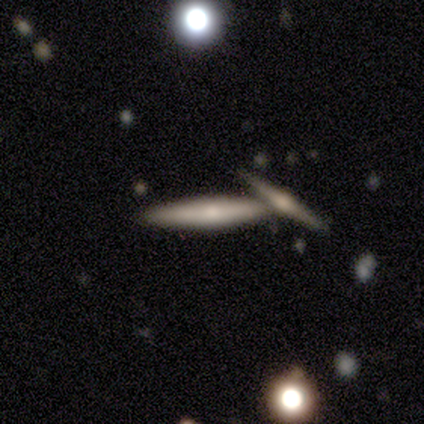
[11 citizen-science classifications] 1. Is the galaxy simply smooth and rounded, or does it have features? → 82% featured or disk, 18% smooth, 0% star or artifact.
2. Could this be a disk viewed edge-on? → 100% yes, 0% no.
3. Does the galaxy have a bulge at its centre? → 56% rounded, 33% boxy, 11% none.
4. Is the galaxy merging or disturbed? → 73% none, 27% merger, 0% minor disturbance, 0% major disturbance.